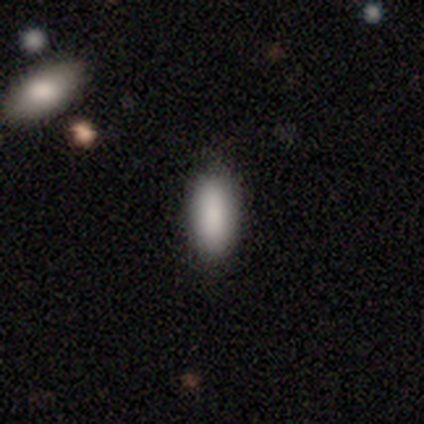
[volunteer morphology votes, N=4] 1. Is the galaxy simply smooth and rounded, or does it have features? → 100% smooth, 0% featured or disk, 0% star or artifact.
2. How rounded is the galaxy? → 100% in between, 0% round, 0% cigar-shaped.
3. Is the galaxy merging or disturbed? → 100% none, 0% minor disturbance, 0% major disturbance, 0% merger.